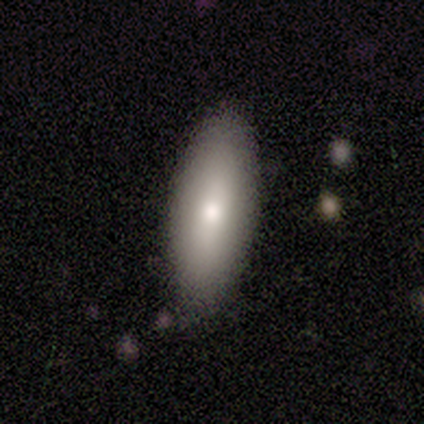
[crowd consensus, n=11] Smooth or featured?
  - smooth: 82% *
  - featured or disk: 9%
  - star or artifact: 9%
How rounded?
  - in between: 78% *
  - cigar-shaped: 22%
  - round: 0%
Merging?
  - none: 90% *
  - minor disturbance: 10%
  - major disturbance: 0%
  - merger: 0%